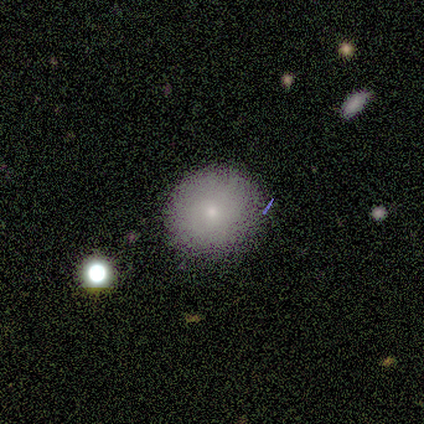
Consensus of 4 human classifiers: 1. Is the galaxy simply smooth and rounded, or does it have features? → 75% featured or disk, 25% smooth, 0% star or artifact.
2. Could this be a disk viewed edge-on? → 67% no, 33% yes.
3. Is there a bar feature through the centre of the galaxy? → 100% no, 0% strong, 0% weak.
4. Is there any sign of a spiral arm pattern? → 100% no, 0% yes.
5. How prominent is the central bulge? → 50% moderate (tied), 50% small (tied), 0% dominant, 0% large, 0% none.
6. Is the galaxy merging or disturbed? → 75% none, 25% merger, 0% minor disturbance, 0% major disturbance.